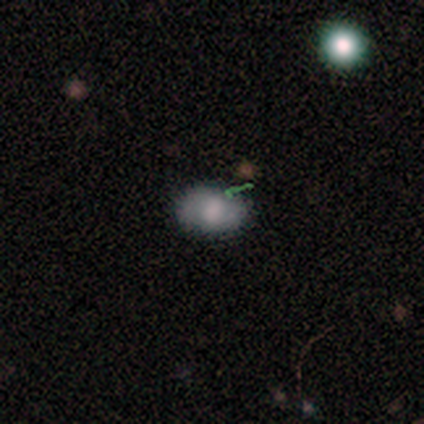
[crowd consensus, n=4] Q: Smooth or featured?
A: smooth (75%); runner-up: featured or disk (25%)
Q: How rounded?
A: in between (100%)
Q: Merging?
A: none (75%); runner-up: minor disturbance (25%)